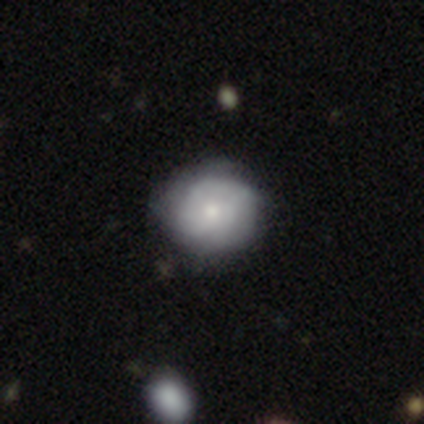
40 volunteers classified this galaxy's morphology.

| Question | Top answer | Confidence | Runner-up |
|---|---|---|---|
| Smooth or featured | featured or disk | 50% | smooth (48%) |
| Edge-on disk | no | 100% | — |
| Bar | no | 80% | weak (20%) |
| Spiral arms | yes | 60% | no (40%) |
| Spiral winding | tight | 75% | medium (17%) |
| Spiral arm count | can't tell | 42% | 1 (17%) |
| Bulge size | moderate | 55% | small (40%) |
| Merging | none | 41% | minor disturbance (18%) |